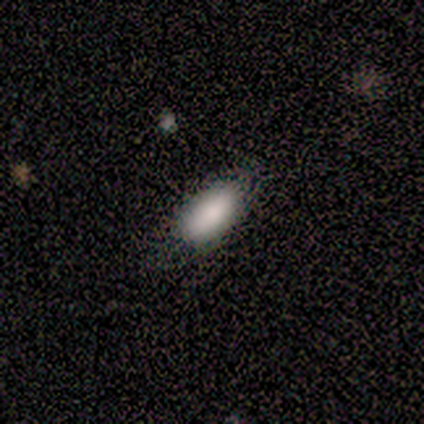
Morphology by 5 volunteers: Smooth or featured? 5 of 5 (100%) said smooth. How rounded? 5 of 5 (100%) said in between. Merging? 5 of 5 (100%) said none.